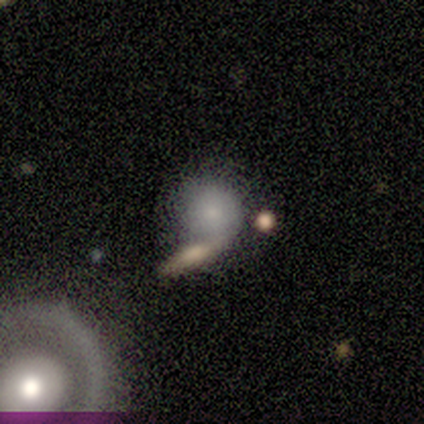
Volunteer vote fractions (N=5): smooth-or-featured: smooth: 80% | featured or disk: 20% | star or artifact: 0%
  how-rounded: round: 100% | in between: 0% | cigar-shaped: 0%
  merging: none: 60% | merger: 40% | minor disturbance: 0% | major disturbance: 0%